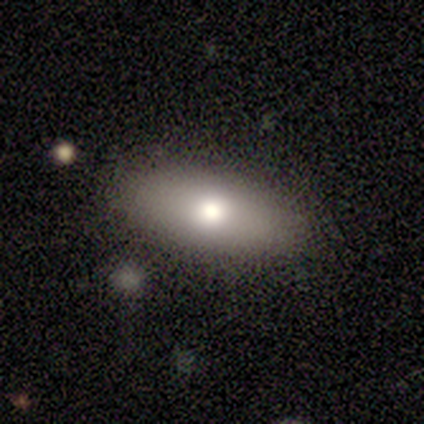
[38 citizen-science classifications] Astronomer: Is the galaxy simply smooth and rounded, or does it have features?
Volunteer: smooth — 79%.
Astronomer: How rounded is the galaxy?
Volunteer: in between — 80%.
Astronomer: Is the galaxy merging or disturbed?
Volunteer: none — 89%.